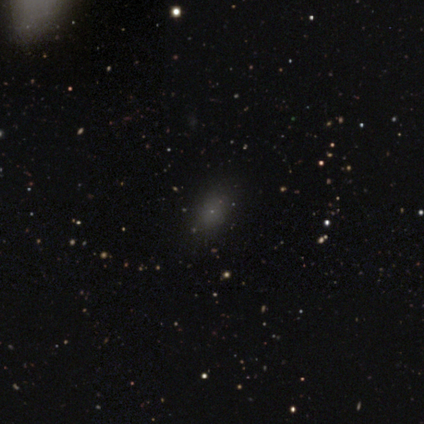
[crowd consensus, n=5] Overall: smooth (60%; star or artifact 40%). How rounded: in between (67%; round 33%). Merging: none (67%; minor disturbance 33%).